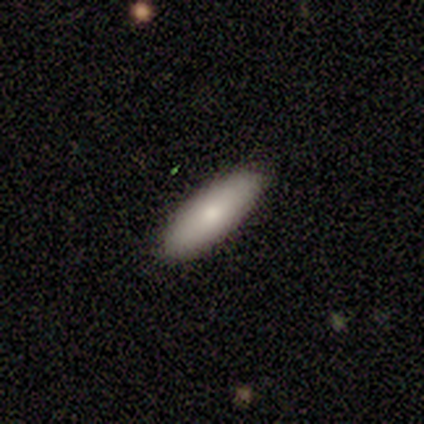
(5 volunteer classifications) Overall: smooth (100%). How rounded: in between (60%; cigar-shaped 40%). Merging: none (100%).